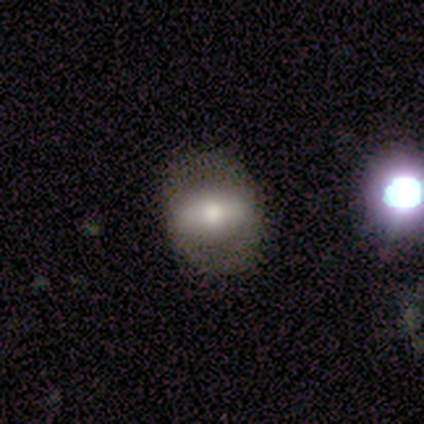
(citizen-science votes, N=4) Smooth or featured: featured or disk — 75% (smooth — 25%)
Edge-on disk: no — 67% (yes — 33%)
Bar: strong — 100%
Spiral arms: no — 100%
Bulge size: moderate — 50% (tied with small — 50%)
Merging: none — 75% (major disturbance — 25%)